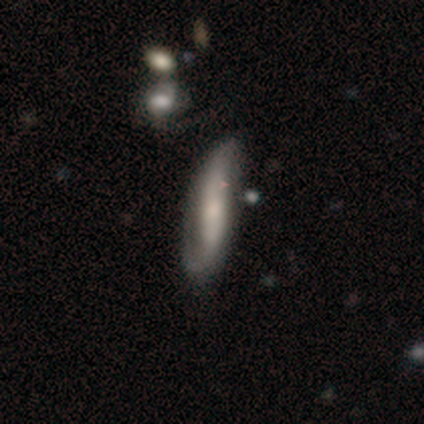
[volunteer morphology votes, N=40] featured or disk 72%, smooth 25%, star or artifact 2%. Down the decision tree: edge-on disk — no (83%); bar — strong (42%); spiral arms — yes (92%); spiral arm count — 2 (91%); spiral winding — loose (59%); bulge size — small (54%); merging — none (36%).